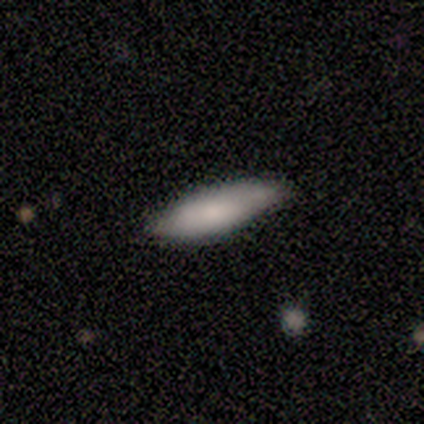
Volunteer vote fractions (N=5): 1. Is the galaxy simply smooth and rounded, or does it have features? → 60% smooth, 40% featured or disk, 0% star or artifact.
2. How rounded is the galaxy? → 67% in between, 33% cigar-shaped, 0% round.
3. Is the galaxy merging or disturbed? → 60% none, 40% minor disturbance, 0% major disturbance, 0% merger.